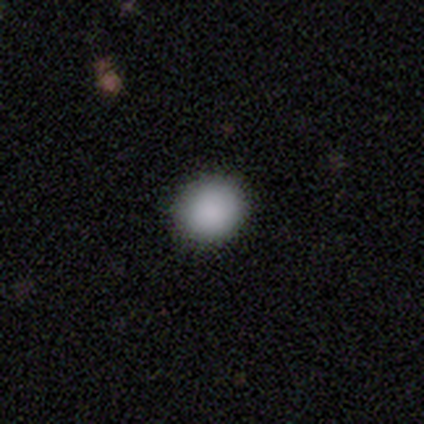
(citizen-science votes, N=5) A smooth galaxy with no disk features (100%) that is round (80%).

Vote fractions:
- Smooth or featured? smooth: 100% / featured or disk: 0% / star or artifact: 0%
- How rounded? round: 80% / in between: 20% / cigar-shaped: 0%
- Merging? none: 100% / minor disturbance: 0% / major disturbance: 0% / merger: 0%